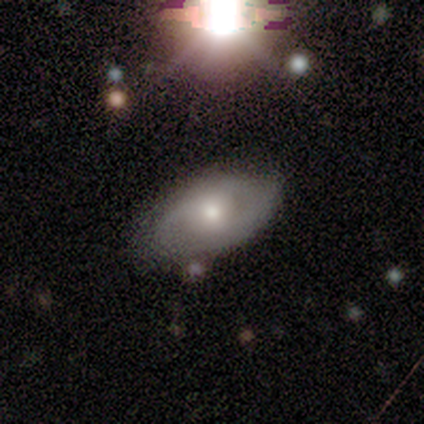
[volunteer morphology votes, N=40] Q: Smooth or featured?
A: featured or disk (65%); runner-up: smooth (30%)
Q: Edge-on disk?
A: no (92%); runner-up: yes (8%)
Q: Bar?
A: no (75%); runner-up: weak (21%)
Q: Spiral arms?
A: yes (71%); runner-up: no (29%)
Q: Spiral winding?
A: medium (65%); runner-up: tight (29%)
Q: Spiral arm count?
A: 2 (88%); runner-up: can't tell (12%)
Q: Bulge size?
A: moderate (62%); runner-up: small (25%)
Q: Merging?
A: none (61%); runner-up: minor disturbance (13%)